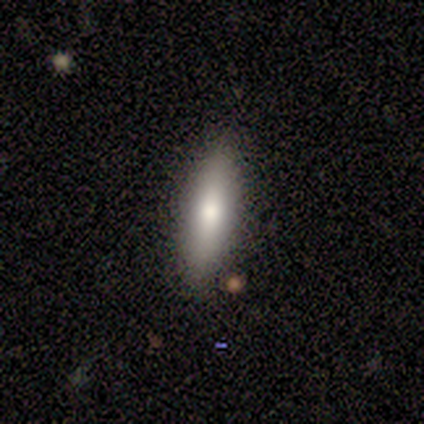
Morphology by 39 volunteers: Smooth or featured?
  - smooth: 62% *
  - featured or disk: 26%
  - star or artifact: 13%
How rounded?
  - cigar-shaped: 71% *
  - in between: 29%
  - round: 0%
Merging?
  - none: 88% *
  - minor disturbance: 9%
  - major disturbance: 3%
  - merger: 0%